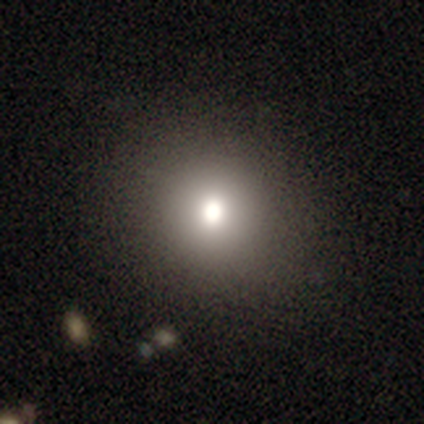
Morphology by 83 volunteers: Smooth or featured?
  - smooth: 78% *
  - star or artifact: 12%
  - featured or disk: 10%
How rounded?
  - round: 94% *
  - in between: 6%
  - cigar-shaped: 0%
Merging?
  - none: 53% *
  - minor disturbance: 3%
  - major disturbance: 0%
  - merger: 0%